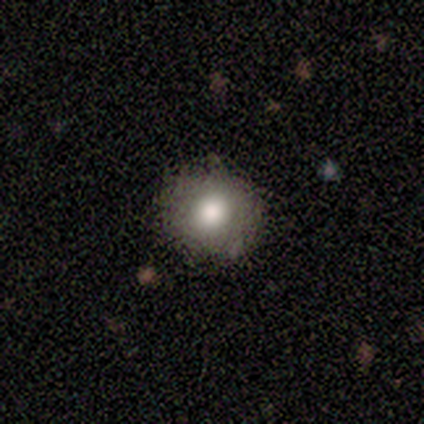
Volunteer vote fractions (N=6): This is clearly a smooth galaxy (100%). How rounded: clearly round (100%). Merging: clearly none (83%).